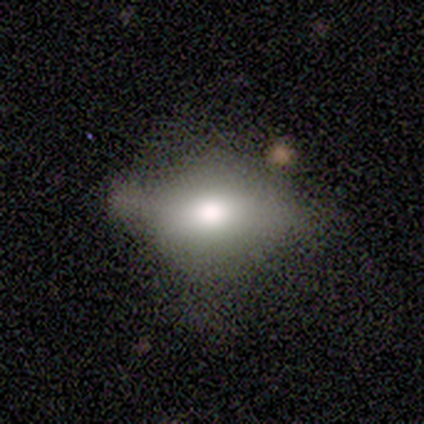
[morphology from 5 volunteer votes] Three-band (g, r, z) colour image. It shows a smooth galaxy with no disk features (40%, tied with star or artifact) that is in between round and cigar-shaped (100%). Merging: minor disturbance (67%).